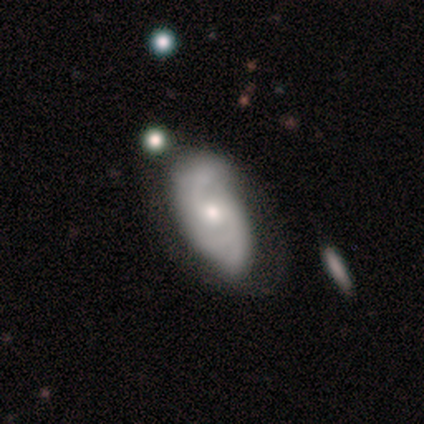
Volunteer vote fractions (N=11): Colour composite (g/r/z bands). It shows a featured or disk galaxy (82%) with no bar (78%), 2 (50%) medium (50%) spiral arms (89%) and a moderate central bulge (44%, tied with small). Merging: none (60%).